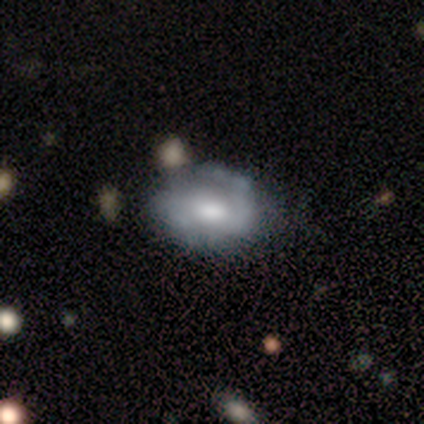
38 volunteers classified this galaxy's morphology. Smooth or featured?
  - featured or disk: 68% *
  - smooth: 26%
  - star or artifact: 5%
Edge-on disk?
  - no: 96% *
  - yes: 4%
Bar?
  - no: 56% *
  - weak: 36%
  - strong: 8%
Spiral arms?
  - yes: 60% *
  - no: 40%
Spiral winding?
  - tight: 40% *
  - loose: 33%
  - medium: 27%
Spiral arm count?
  - 2: 53% *
  - 1: 33%
  - can't tell: 13%
  - 3: 0%
  - 4: 0%
  - more than 4: 0%
Bulge size?
  - moderate: 80% *
  - large: 16%
  - small: 4%
  - dominant: 0%
  - none: 0%
Merging?
  - none: 64% *
  - minor disturbance: 28%
  - merger: 6%
  - major disturbance: 3%